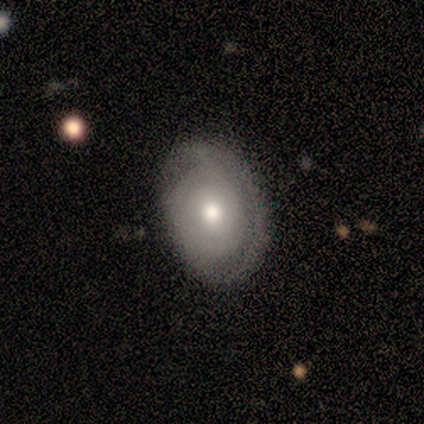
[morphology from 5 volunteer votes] This appears to be a smooth galaxy with no disk features (40%, tied with featured or disk) that is round (50%, tied with in between). Merging: none (50%).